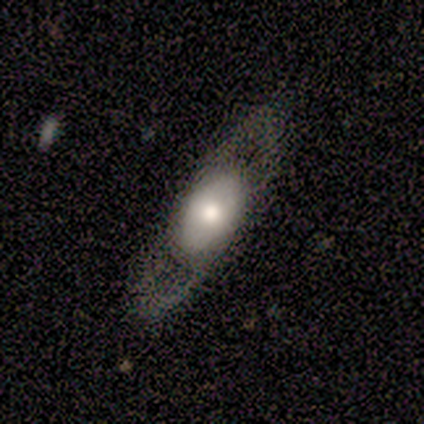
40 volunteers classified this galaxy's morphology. smooth_or_featured: featured or disk (p=0.55) [alt: smooth p=0.42]
disk_edge_on: no (p=0.82) [alt: yes p=0.18]
bar: no (p=0.94) [alt: weak p=0.06]
has_spiral_arms: no (p=0.61) [alt: yes p=0.39]
bulge_size: moderate (p=0.56) [alt: dominant p=0.17]
merging: none (p=0.69) [alt: major disturbance p=0.18]